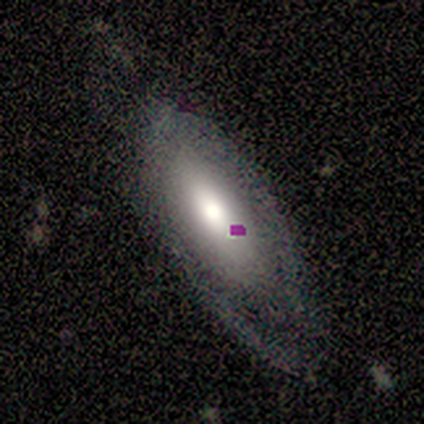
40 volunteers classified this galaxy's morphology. Overall: smooth (48%; featured or disk 40%). How rounded: in between (95%). Merging: none (40%; minor disturbance 34%).